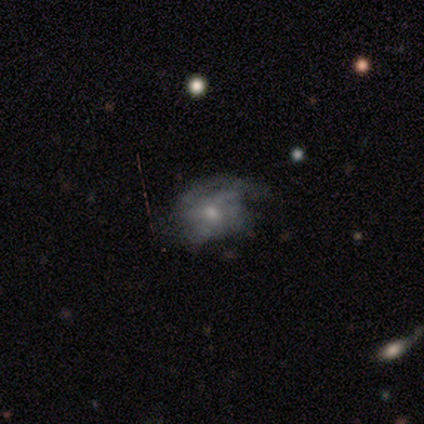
This appears to be a featured or disk galaxy (79%) with no bar (69%), medium (47%) spiral arms (52%) and a moderate central bulge (62%). Merging: none (69%).